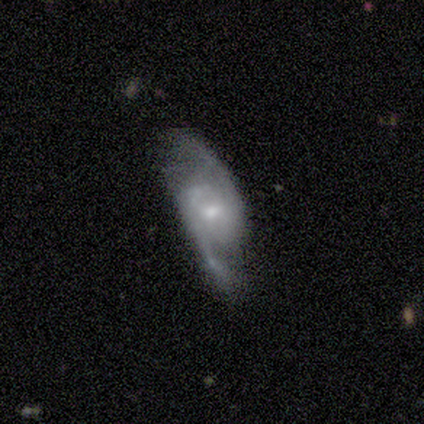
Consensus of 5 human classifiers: Q: Smooth or featured?
A: featured or disk (60%); runner-up: smooth (20%)
Q: Edge-on disk?
A: no (100%)
Q: Bar?
A: no (100%)
Q: Spiral arms?
A: yes (100%)
Q: Spiral winding?
A: tight (33%); tied with: medium (33%); loose (33%)
Q: Spiral arm count?
A: 2 (100%)
Q: Bulge size?
A: small (67%); runner-up: moderate (33%)
Q: Merging?
A: none (75%); runner-up: major disturbance (25%)